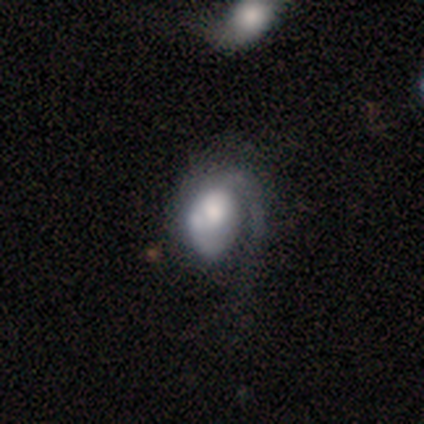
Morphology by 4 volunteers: A smooth galaxy with no disk features (50%, tied with featured or disk) that is round (50%, tied with in between). Merging: major disturbance (75%).